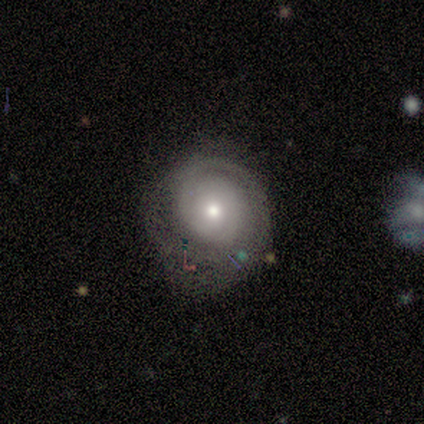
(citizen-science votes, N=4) Smooth or featured? 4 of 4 (100%) said featured or disk. Edge-on disk? 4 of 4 (100%) said no. Bar? 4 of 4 (100%) said no. Spiral arms? 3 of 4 (75%) said yes. Spiral winding? 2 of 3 (67%) said tight. Spiral arm count? 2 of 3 (67%) said 1. Bulge size? 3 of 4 (75%) said small. Merging? 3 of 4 (75%) said none.